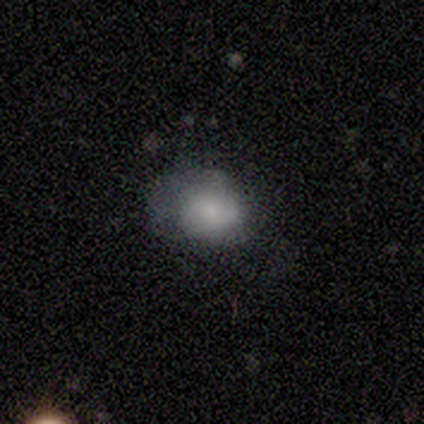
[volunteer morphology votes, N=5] A smooth galaxy with no disk features (100%) that is in between round and cigar-shaped (80%).

Vote fractions:
- Smooth or featured? smooth: 100% / featured or disk: 0% / star or artifact: 0%
- How rounded? in between: 80% / round: 20% / cigar-shaped: 0%
- Merging? none: 40% (tied) / minor disturbance: 40% (tied) / major disturbance: 20% / merger: 0%